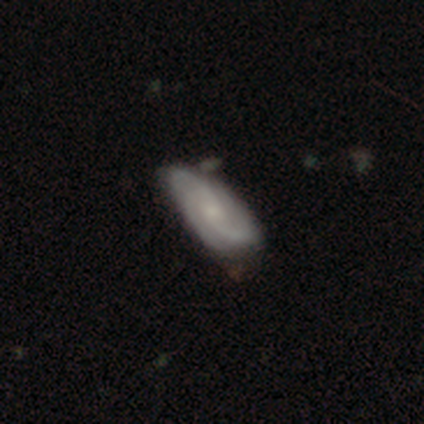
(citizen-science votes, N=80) Smooth or featured: featured or disk — 84% (smooth — 15%)
Edge-on disk: no — 94% (yes — 6%)
Bar: no — 75% (weak — 22%)
Spiral arms: yes — 95% (no — 5%)
Spiral winding: medium — 55% (tight — 30%)
Spiral arm count: 3 — 57% (2 — 23%)
Bulge size: small — 68% (moderate — 17%)
Merging: none — 39% (minor disturbance — 9%)